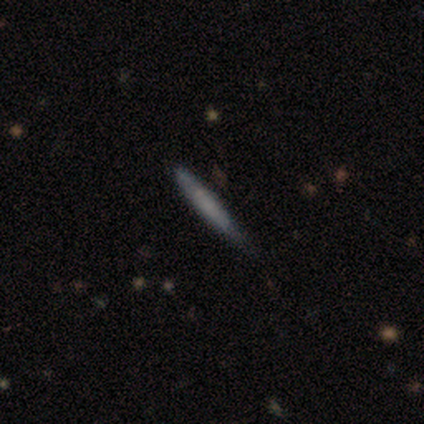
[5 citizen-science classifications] Volunteers were most divided on "merging": none: 80%, minor disturbance: 20%, major disturbance: 0%, merger: 0%. More confident: smooth or featured — smooth (100%); how rounded — cigar-shaped (100%).